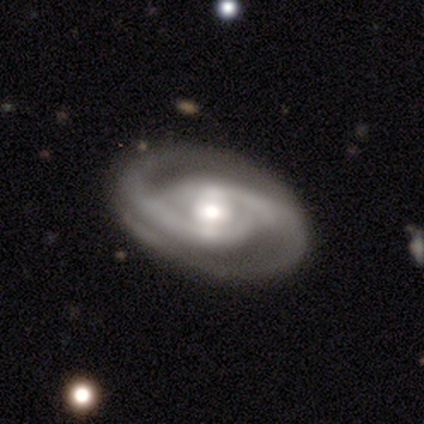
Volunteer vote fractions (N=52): smooth-or-featured: featured or disk: 88% | smooth: 8% | star or artifact: 4%
  disk-edge-on: no: 98% | yes: 2%
    bar: no: 42% | weak: 40% | strong: 18%
    has-spiral-arms: yes: 96% | no: 4%
      spiral-winding: medium: 47% | tight: 37% | loose: 16%
      spiral-arm-count: 2: 93% | can't tell: 5% | 3: 2% | 1: 0% | 4: 0% | more than 4: 0%
    bulge-size: moderate: 60% | large: 20% | small: 20% | dominant: 0% | none: 0%
  merging: none: 94% | minor disturbance: 6% | major disturbance: 0% | merger: 0%